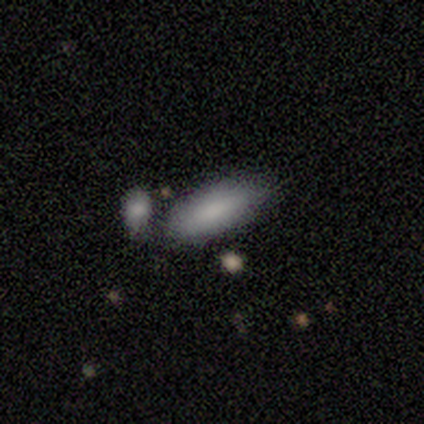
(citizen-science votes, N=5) Smooth or featured?
  - smooth: 60% *
  - featured or disk: 20%
  - star or artifact: 20%
How rounded?
  - in between: 100% *
  - round: 0%
  - cigar-shaped: 0%
Merging?
  - none: 75% *
  - merger: 25%
  - minor disturbance: 0%
  - major disturbance: 0%